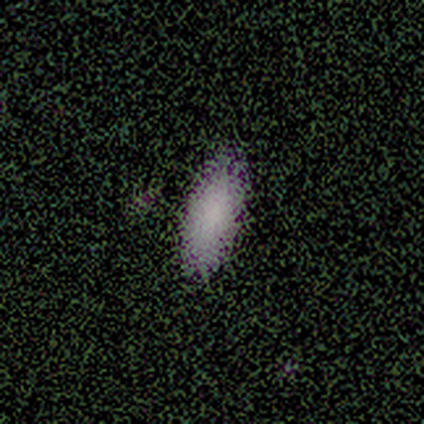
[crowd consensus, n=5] Volunteers were most divided on "how rounded": in between: 75%, cigar-shaped: 25%, round: 0%. More confident: merging — none (100%); smooth or featured — smooth (80%).